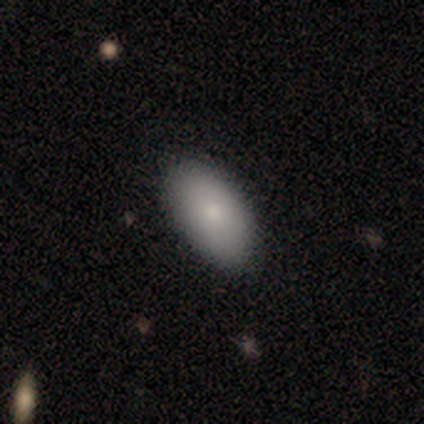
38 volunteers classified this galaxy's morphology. Smooth or featured: smooth — 84% (featured or disk — 13%)
How rounded: in between — 97% (cigar-shaped — 3%)
Merging: none — 68% (minor disturbance — 11%)